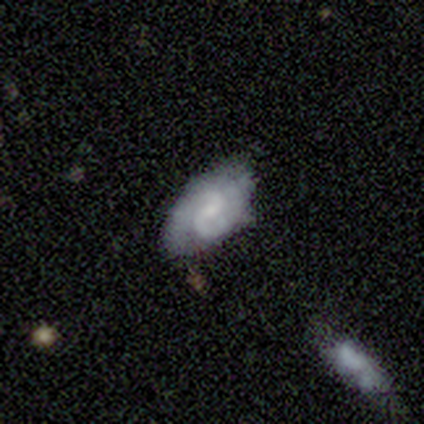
This appears to be a smooth galaxy with no disk features (100%) that is in between round and cigar-shaped (100%). Merging: none (100%).